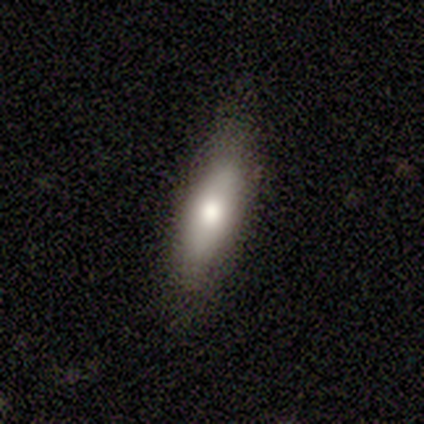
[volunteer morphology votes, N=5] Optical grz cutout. It shows a featured or disk galaxy (60%) viewed edge-on (67%) with a rounded central bulge (100%). Merging: none (80%).